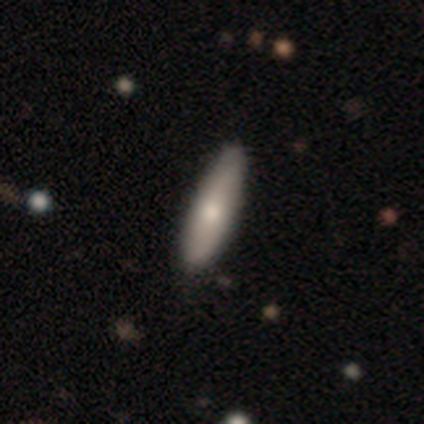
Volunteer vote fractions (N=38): Smooth or featured? smooth (71%)
How rounded? cigar-shaped (63%)
Merging? none (62%)